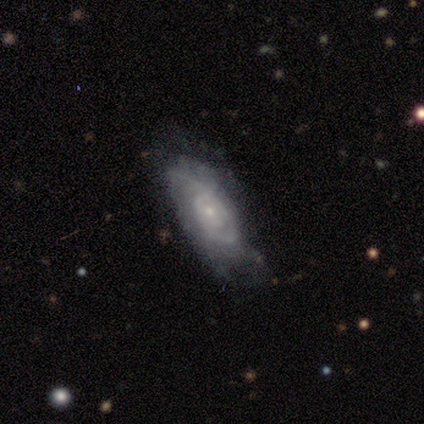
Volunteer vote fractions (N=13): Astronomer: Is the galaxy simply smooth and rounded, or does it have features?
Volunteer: featured or disk — 100%.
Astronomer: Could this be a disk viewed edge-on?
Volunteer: no — 100%.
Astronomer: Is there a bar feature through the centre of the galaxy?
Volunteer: no — 77%.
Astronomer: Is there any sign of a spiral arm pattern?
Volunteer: yes — 100%.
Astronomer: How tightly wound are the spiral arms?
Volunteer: medium — 62%.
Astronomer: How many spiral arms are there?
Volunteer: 2 — 31%, tied with can't tell at 31%.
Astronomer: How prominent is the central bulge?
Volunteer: small — 85%.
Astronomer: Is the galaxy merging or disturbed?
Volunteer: minor disturbance — 62%.